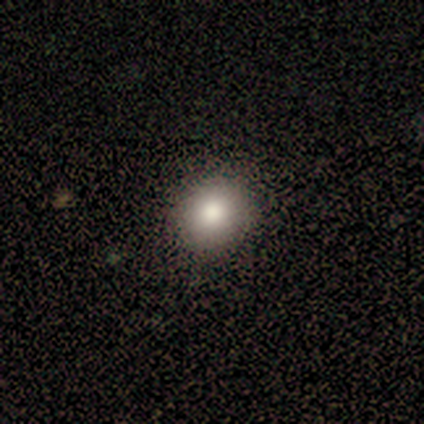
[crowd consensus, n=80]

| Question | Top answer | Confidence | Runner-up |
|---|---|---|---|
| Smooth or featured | smooth | 84% | star or artifact (9%) |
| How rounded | round | 90% | in between (10%) |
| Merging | none | 59% | minor disturbance (5%) |